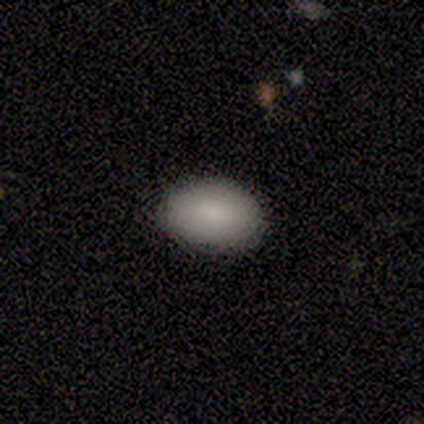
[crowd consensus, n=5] Smooth or featured: smooth — 80% (featured or disk — 20%)
How rounded: in between — 100%
Merging: none — 100%